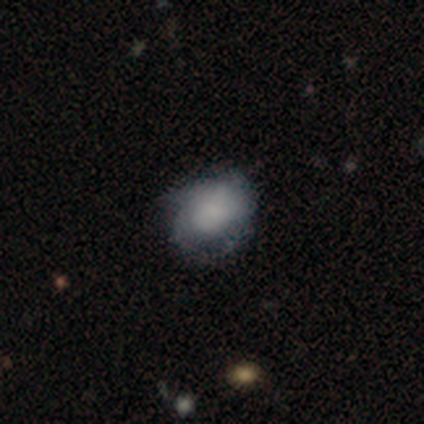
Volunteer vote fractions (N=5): A smooth galaxy with no disk features (80%) that is round (50%, tied with in between). Merging: none (60%).